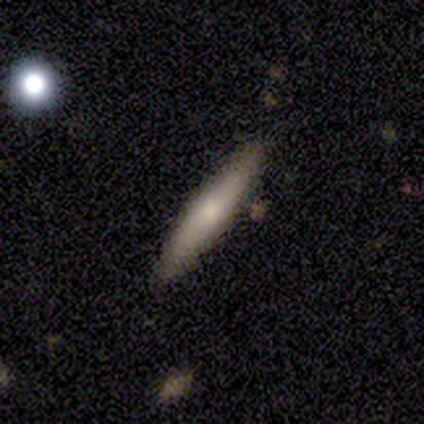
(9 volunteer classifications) Smooth or featured: smooth — 44% (featured or disk — 33%)
How rounded: cigar-shaped — 75% (in between — 25%)
Merging: none — 86% (minor disturbance — 14%)